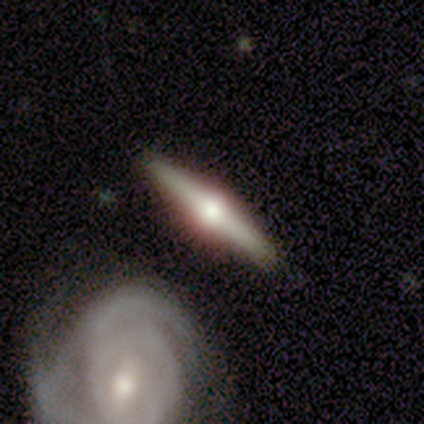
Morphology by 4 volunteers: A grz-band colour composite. It shows a featured or disk galaxy (100%) viewed edge-on (100%) with a rounded central bulge (100%). Merging: none (75%).